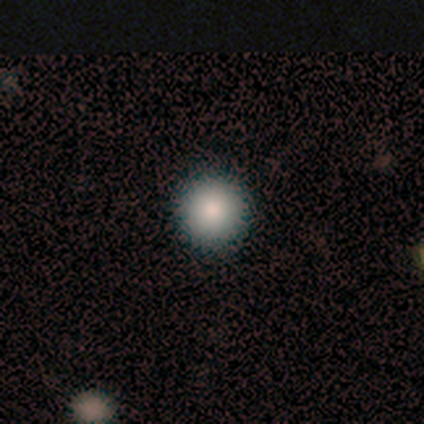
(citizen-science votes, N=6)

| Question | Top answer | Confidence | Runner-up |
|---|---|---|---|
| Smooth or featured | smooth | 67% | star or artifact (33%) |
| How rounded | round | 100% | — |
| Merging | none | 100% | — |